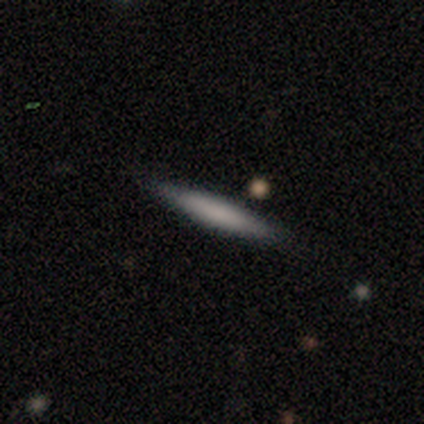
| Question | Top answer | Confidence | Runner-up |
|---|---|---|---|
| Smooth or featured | smooth | 80% | featured or disk (20%) |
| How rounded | cigar-shaped | 100% | — |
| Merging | none | 100% | — |